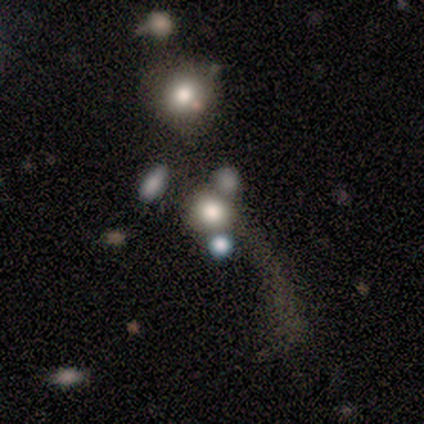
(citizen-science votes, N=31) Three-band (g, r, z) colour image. It shows a smooth galaxy with no disk features (68%) that is round (90%). Merging: none (36%).